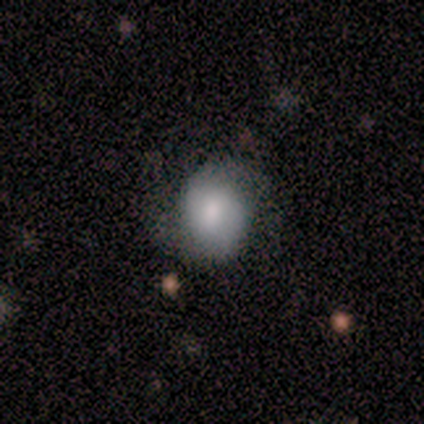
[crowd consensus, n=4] This is possibly a smooth galaxy (50%, tied with featured or disk). How rounded: clearly in between (100%). Merging: likely minor disturbance (75%).